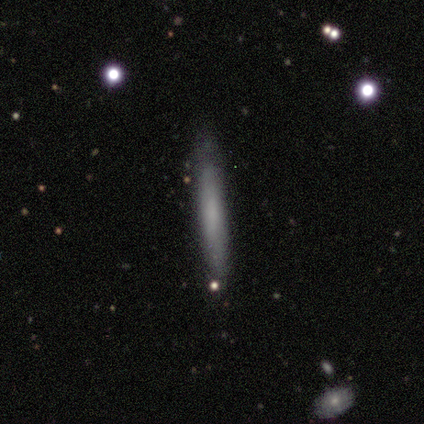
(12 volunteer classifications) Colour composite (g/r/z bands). It shows a featured or disk galaxy (58%) viewed edge-on (86%) with no central bulge (50%, tied with rounded). Merging: none (91%).